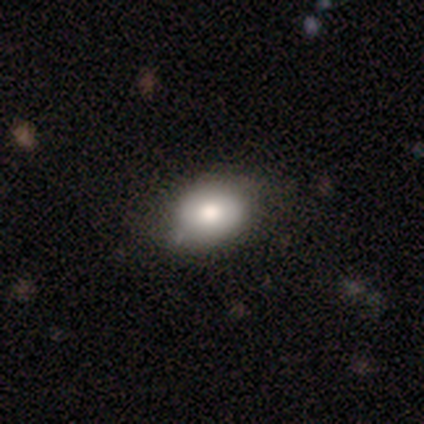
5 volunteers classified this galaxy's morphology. Volunteers were most divided on "smooth or featured": smooth: 60%, featured or disk: 40%, star or artifact: 0%. More confident: how rounded — in between (67%); merging — none (60%).